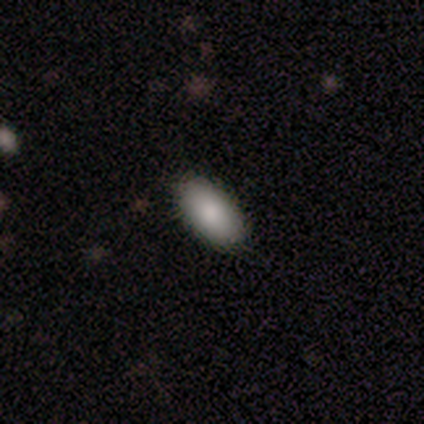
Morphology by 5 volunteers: This appears to be a smooth galaxy with no disk features (100%) that is in between round and cigar-shaped (100%). Merging: none (100%).